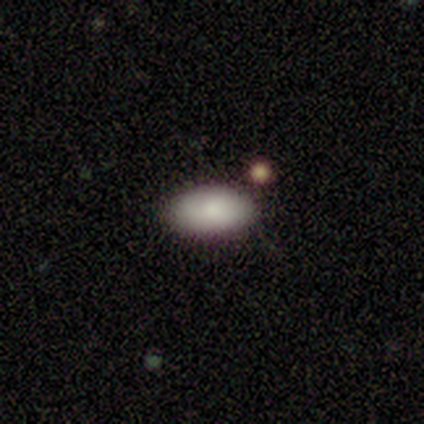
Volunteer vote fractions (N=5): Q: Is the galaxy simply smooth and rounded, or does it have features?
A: smooth — 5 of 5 (100%).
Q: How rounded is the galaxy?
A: in between — 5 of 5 (100%).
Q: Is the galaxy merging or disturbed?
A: none — 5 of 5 (100%).